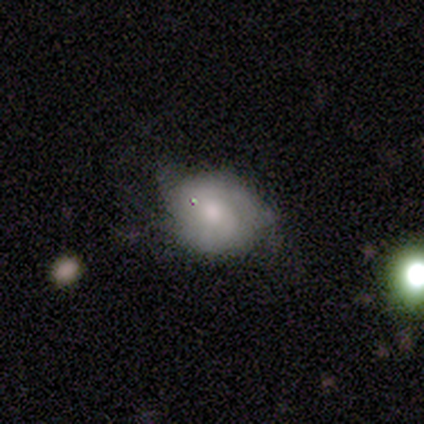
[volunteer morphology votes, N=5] Overall: smooth (60%; featured or disk 20%). How rounded: in between (67%; round 33%). Merging: minor disturbance (75%).